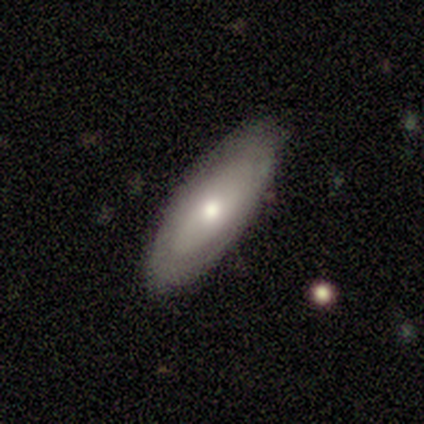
Smooth or featured: featured or disk — 80% (smooth — 20%)
Edge-on disk: no — 100%
Bar: no — 100%
Spiral arms: no — 100%
Bulge size: moderate — 75% (large — 25%)
Merging: none — 100%